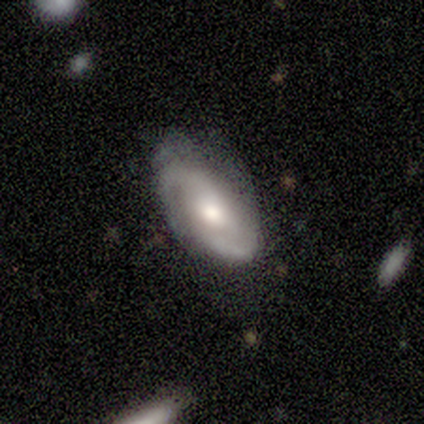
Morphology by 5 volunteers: Smooth or featured? featured or disk (100%)
Edge-on disk? no (100%)
Bar? no (80%)
Spiral arms? yes (100%)
Spiral winding? tight (60%)
Spiral arm count? 2 (80%)
Bulge size? moderate (80%)
Merging? none (80%)